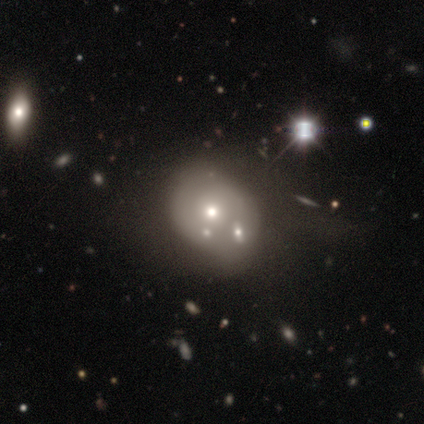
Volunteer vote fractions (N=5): smooth_or_featured: featured or disk (p=0.60) [alt: star or artifact p=0.40]
disk_edge_on: no (p=1.00)
bar: no (p=1.00)
has_spiral_arms: no (p=1.00)
bulge_size: small (p=0.67) [alt: moderate p=0.33]
merging: none (p=0.33) [tied with: minor disturbance p=0.33, merger p=0.33]